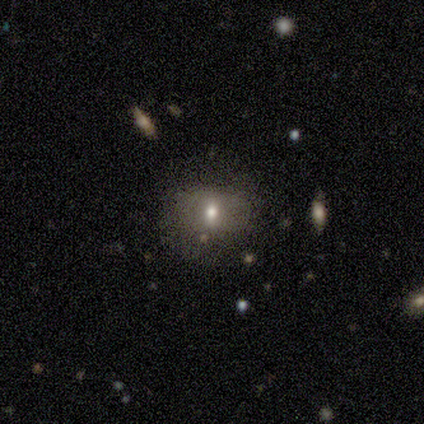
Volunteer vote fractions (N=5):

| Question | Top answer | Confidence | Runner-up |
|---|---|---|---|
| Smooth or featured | smooth | 80% | featured or disk (20%) |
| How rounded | in between | 75% | round (25%) |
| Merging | none | 80% | minor disturbance (20%) |